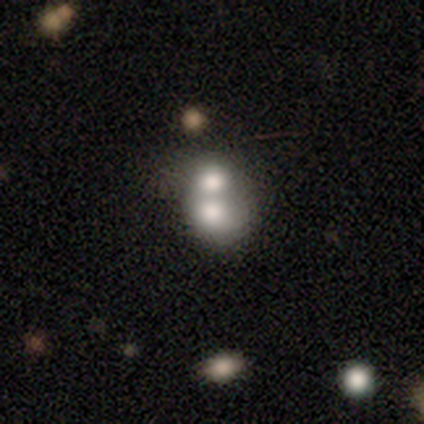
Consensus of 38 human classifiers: Smooth or featured?
  - smooth: 58% *
  - featured or disk: 26%
  - star or artifact: 16%
How rounded?
  - in between: 55% *
  - round: 45%
  - cigar-shaped: 0%
Merging?
  - merger: 88% *
  - none: 6%
  - minor disturbance: 6%
  - major disturbance: 0%